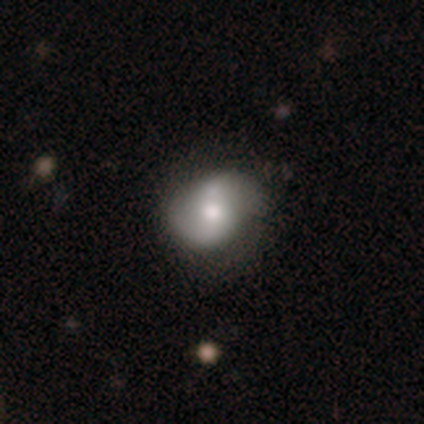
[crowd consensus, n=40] Smooth or featured? featured or disk (50%)
Edge-on disk? no (100%)
Bar? no (55%)
Spiral arms? yes (95%)
Spiral winding? loose (53%)
Spiral arm count? 2 (84%)
Bulge size? moderate (80%)
Merging? none (58%)